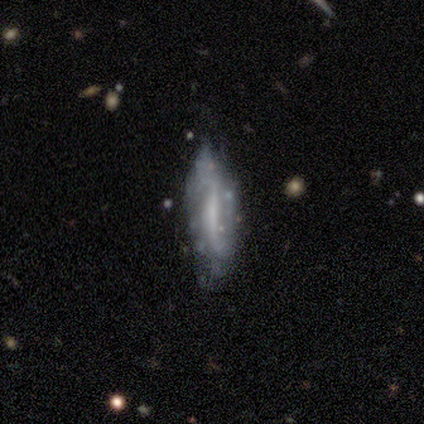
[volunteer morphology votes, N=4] Smooth or featured? featured or disk (100%)
Edge-on disk? no (100%)
Bar? no (50%)
Spiral arms? no (75%)
Bulge size? none (75%)
Merging? minor disturbance (50%)